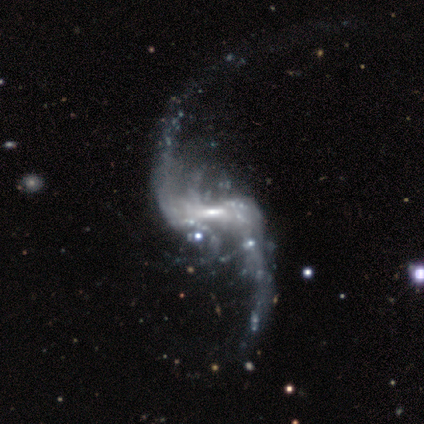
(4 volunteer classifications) Morphology: type=featured or disk (100%); edge-on=no (100%); bar=strong (75%); spiral arms=yes (100%); winding=loose (100%); arm count=2 (100%); bulge=moderate (50%); merging=minor disturbance (50%).